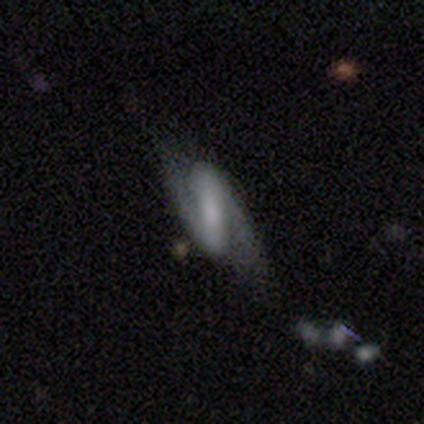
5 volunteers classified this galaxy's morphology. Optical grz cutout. It shows a featured or disk galaxy (80%) with a strong bar (75%), 2 (100%) loose (75%) spiral arms (100%) and a moderate central bulge (50%). Merging: none (60%).